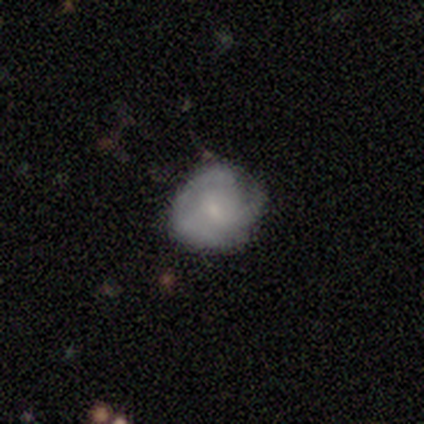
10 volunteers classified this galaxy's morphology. Smooth or featured?
  - featured or disk: 80% *
  - smooth: 20%
  - star or artifact: 0%
Edge-on disk?
  - no: 100% *
  - yes: 0%
Bar?
  - no: 75% *
  - weak: 25%
  - strong: 0%
Spiral arms?
  - yes: 62% *
  - no: 38%
Spiral winding?
  - medium: 80% *
  - tight: 20%
  - loose: 0%
Spiral arm count?
  - 3: 60% *
  - can't tell: 40%
  - 1: 0%
  - 2: 0%
  - 4: 0%
  - more than 4: 0%
Bulge size?
  - small: 100% *
  - dominant: 0%
  - large: 0%
  - moderate: 0%
  - none: 0%
Merging?
  - none: 40% * (tied)
  - minor disturbance: 40% * (tied)
  - major disturbance: 20%
  - merger: 0%